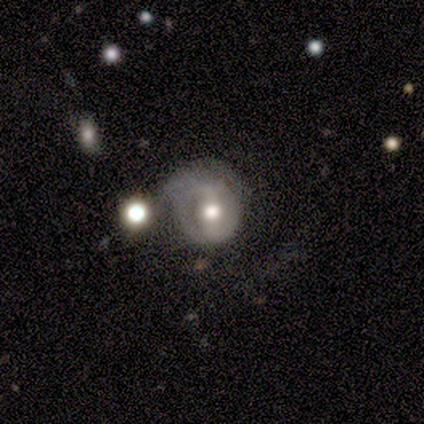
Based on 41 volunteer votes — featured or disk 56%, smooth 37%, star or artifact 7%. Down the decision tree: edge-on disk — no (91%); bar — no (38%); spiral arms — yes (62%); spiral arm count — 2 (62%); spiral winding — tight (69%); bulge size — moderate (62%); merging — major disturbance (34%).